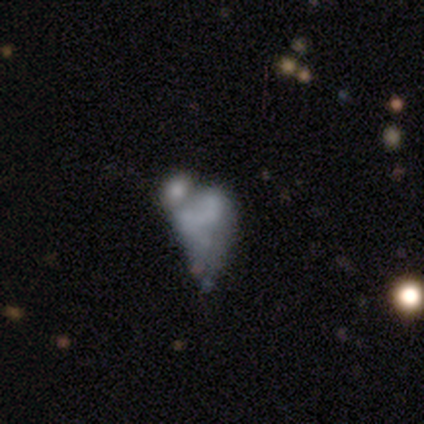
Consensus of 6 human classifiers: This appears to be a smooth galaxy with no disk features (67%) that is in between round and cigar-shaped (100%). Merging: none (33%, tied with major disturbance).